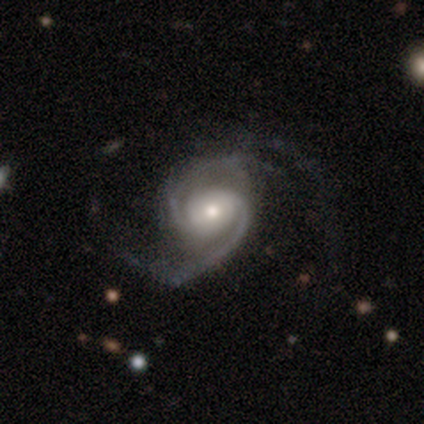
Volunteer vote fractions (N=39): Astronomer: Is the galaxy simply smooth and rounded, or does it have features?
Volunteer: featured or disk — 95%.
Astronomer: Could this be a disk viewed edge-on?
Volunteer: no — 100%.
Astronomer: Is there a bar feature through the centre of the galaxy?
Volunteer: no — 59%.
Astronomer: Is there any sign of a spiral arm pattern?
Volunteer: yes — 95%.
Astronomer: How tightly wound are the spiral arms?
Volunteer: medium — 49% (runner-up: tight, 31%).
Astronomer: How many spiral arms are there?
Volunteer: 2 — 91%.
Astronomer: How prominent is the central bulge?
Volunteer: moderate — 62%.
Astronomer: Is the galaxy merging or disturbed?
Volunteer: none — 55%.